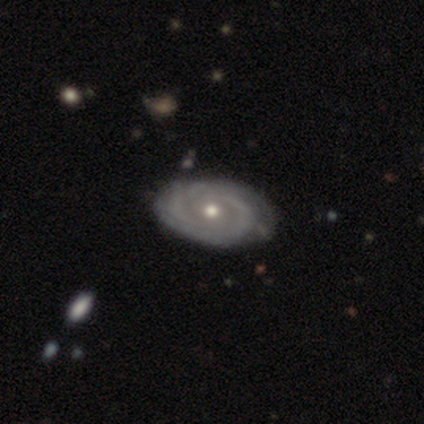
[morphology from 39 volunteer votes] Smooth or featured? 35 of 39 (90%) said featured or disk. Edge-on disk? 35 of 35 (100%) said no. Bar? 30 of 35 (86%) said no. Spiral arms? 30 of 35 (86%) said yes. Spiral winding? 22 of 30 (73%) said tight. Spiral arm count? 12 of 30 (40%, tied with can't tell) said 2. Bulge size? 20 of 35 (57%) said moderate. Merging? 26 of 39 (67%) said none.